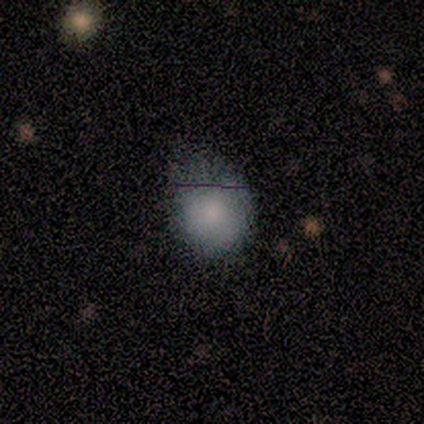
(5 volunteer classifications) This appears to be a smooth galaxy with no disk features (80%) that is round (75%). Merging: minor disturbance (50%).